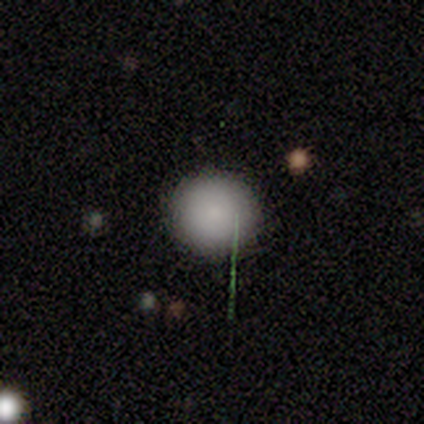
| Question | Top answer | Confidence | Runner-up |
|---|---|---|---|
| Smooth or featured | smooth | 71% | featured or disk (14%) |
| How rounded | round | 100% | — |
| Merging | none | 100% | — |